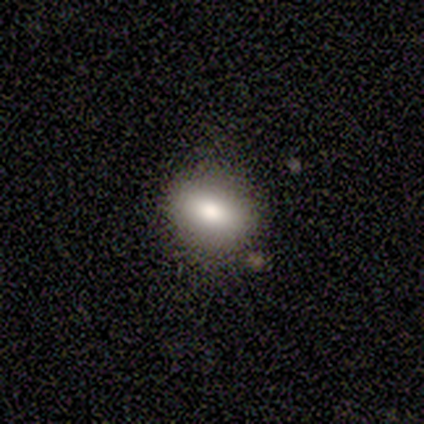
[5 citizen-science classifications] This appears to be a smooth galaxy with no disk features (80%) that is round (50%, tied with in between). Merging: none (100%).